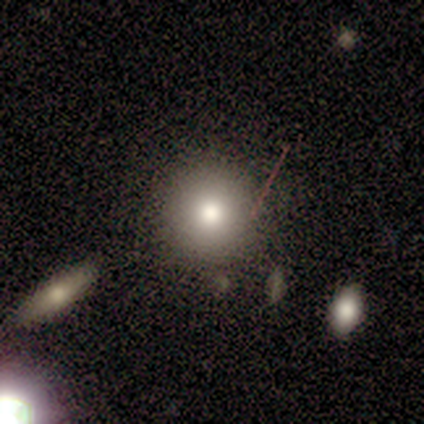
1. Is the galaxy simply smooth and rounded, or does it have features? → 69% smooth, 19% star or artifact, 11% featured or disk.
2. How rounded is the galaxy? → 96% round, 4% in between, 0% cigar-shaped.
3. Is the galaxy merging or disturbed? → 93% none, 3% minor disturbance, 3% major disturbance, 0% merger.